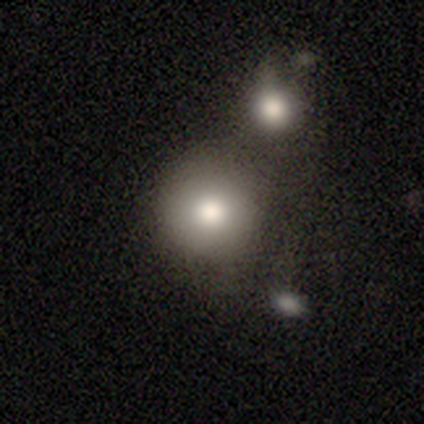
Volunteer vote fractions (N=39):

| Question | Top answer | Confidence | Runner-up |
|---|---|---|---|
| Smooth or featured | smooth | 67% | featured or disk (21%) |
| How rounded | round | 100% | — |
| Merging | none | 47% | merger (35%) |